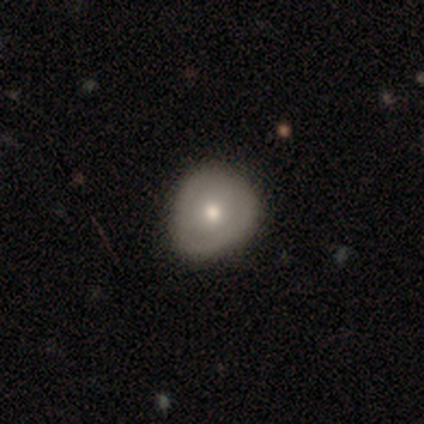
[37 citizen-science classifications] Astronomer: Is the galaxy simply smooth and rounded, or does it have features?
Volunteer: smooth — 54% (runner-up: featured or disk, 30%).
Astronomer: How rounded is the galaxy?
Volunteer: round — 55% (runner-up: in between, 40%).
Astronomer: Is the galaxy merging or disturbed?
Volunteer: none — 77%.